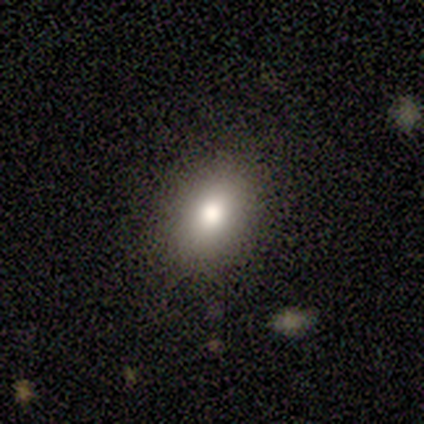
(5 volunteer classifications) Volunteers were most divided on "merging": none: 60%, minor disturbance: 40%, major disturbance: 0%, merger: 0%. More confident: smooth or featured — smooth (100%); how rounded — in between (80%).